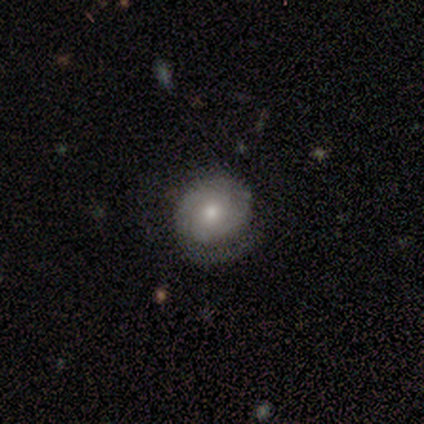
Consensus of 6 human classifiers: Smooth or featured? featured or disk (83%)
Edge-on disk? no (100%)
Bar? no (80%)
Spiral arms? yes (60%)
Spiral winding? tight (100%)
Spiral arm count? 1 (67%)
Bulge size? small (80%)
Merging? none (60%)